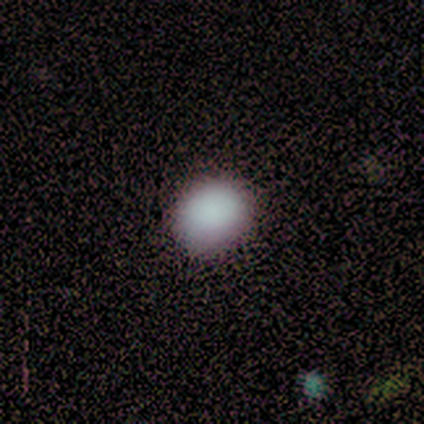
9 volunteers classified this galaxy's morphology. Smooth or featured? smooth (89%)
How rounded? round (50%, tied with in between)
Merging? none (67%)